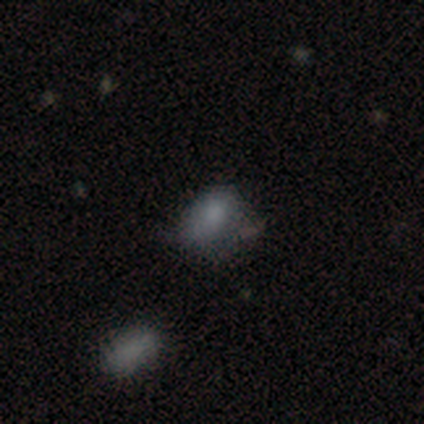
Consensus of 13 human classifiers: This is likely a smooth galaxy (77%). How rounded: clearly in between (90%). Merging: possibly minor disturbance (50%).